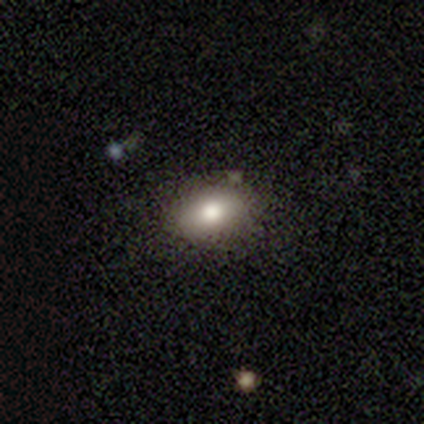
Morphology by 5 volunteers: A smooth galaxy with no disk features (80%) that is in between round and cigar-shaped (100%). Merging: none (80%).